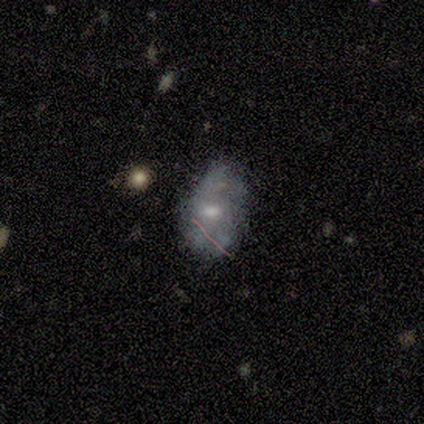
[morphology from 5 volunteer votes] Overall: smooth (100%). How rounded: round (40%, tied with in between). Merging: none (60%; minor disturbance 40%).